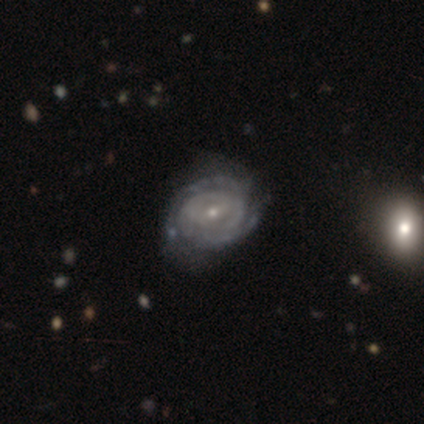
A featured or disk galaxy (92%) with a weak bar (53%), 2 (52%) tight (85%) spiral arms (97%) and a small central bulge (71%).

Vote fractions:
- Smooth or featured? featured or disk: 92% / smooth: 5% / star or artifact: 3%
- Edge-on disk? no: 97% / yes: 3%
- Bar? weak: 53% / no: 38% / strong: 9%
- Spiral arms? yes: 97% / no: 3%
- Spiral winding? tight: 85% / medium: 9% / loose: 6%
- Spiral arm count? 2: 52% / can't tell: 24% / 3: 15% / 4: 6% / 1: 3% / more than 4: 0%
- Bulge size? small: 71% / moderate: 29% / dominant: 0% / large: 0% / none: 0%
- Merging? none: 51% / minor disturbance: 14% / merger: 8% / major disturbance: 3%